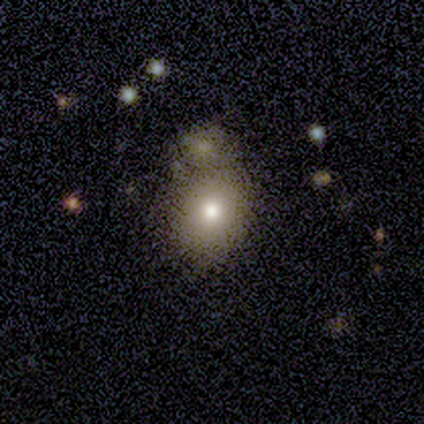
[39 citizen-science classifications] Smooth or featured? 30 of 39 (77%) said smooth. How rounded? 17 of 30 (57%) said round. Merging? 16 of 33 (48%) said merger.